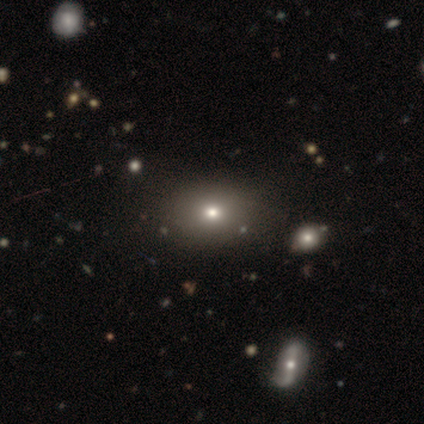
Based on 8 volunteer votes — Smooth or featured: smooth — 88% (star or artifact — 12%)
How rounded: in between — 86% (round — 14%)
Merging: none — 100%